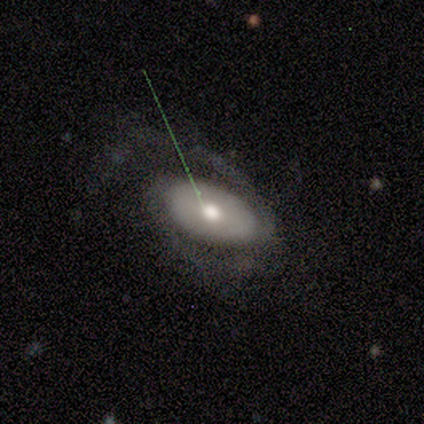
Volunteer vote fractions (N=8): featured or disk 62%, smooth 38%, star or artifact 0%. Down the decision tree: edge-on disk — no (100%); bar — no (80%); spiral arms — yes (100%); spiral arm count — 2 (80%); spiral winding — medium (60%); bulge size — moderate (80%); merging — none (62%).